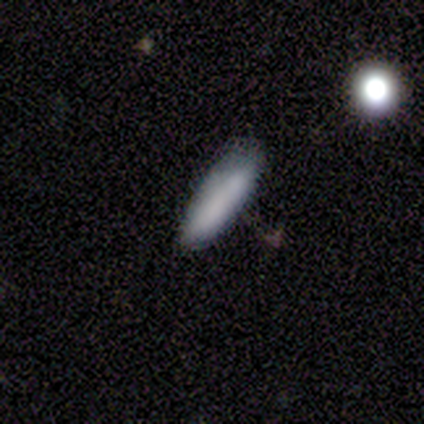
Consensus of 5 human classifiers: Smooth or featured: smooth — 80% (featured or disk — 20%)
How rounded: cigar-shaped — 100%
Merging: none — 80% (major disturbance — 20%)